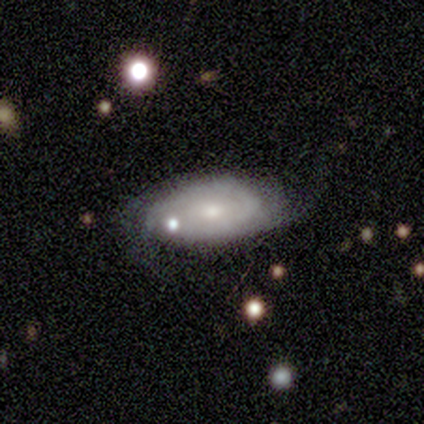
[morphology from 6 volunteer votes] Volunteers were most divided on "merging" (2-way tie): none: 50%, minor disturbance: 50%, major disturbance: 0%, merger: 0%. More confident: edge-on disk — no (100%); bar — no (100%); spiral arms — yes (75%); bulge size — small (75%); smooth or featured — featured or disk (67%); spiral winding — tight (67%); spiral arm count — can't tell (67%).